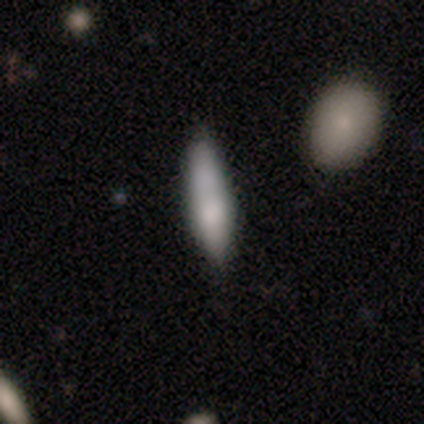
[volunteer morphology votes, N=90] Smooth or featured: smooth — 81% (featured or disk — 14%)
How rounded: cigar-shaped — 71% (in between — 29%)
Merging: none — 67% (minor disturbance — 16%)